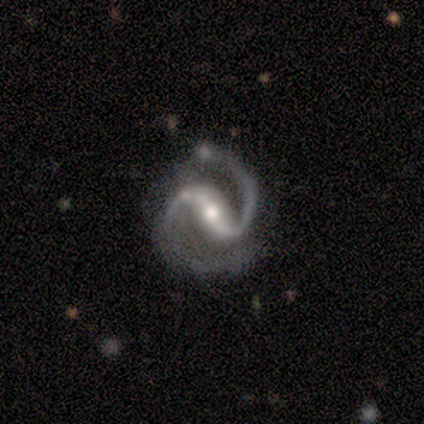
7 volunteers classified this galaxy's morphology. smooth_or_featured: featured or disk (p=1.00)
disk_edge_on: no (p=1.00)
bar: strong (p=1.00)
has_spiral_arms: yes (p=1.00)
spiral_winding: medium (p=0.57) [alt: tight p=0.29]
spiral_arm_count: 2 (p=1.00)
bulge_size: moderate (p=0.57) [alt: small p=0.43]
merging: none (p=0.86) [alt: major disturbance p=0.14]